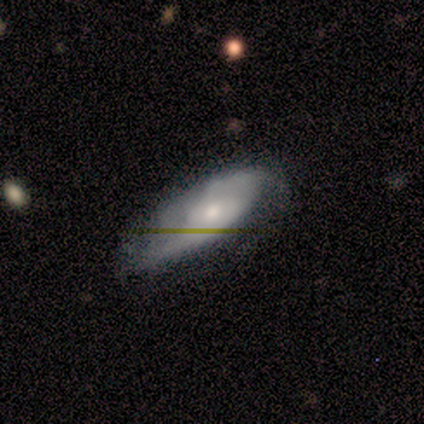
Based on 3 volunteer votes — Smooth or featured? smooth (67%)
How rounded? in between (100%)
Merging? minor disturbance (67%)